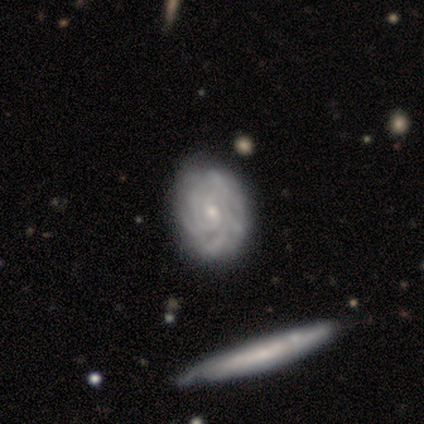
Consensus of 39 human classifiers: Q: Smooth or featured?
A: featured or disk (95%); runner-up: smooth (5%)
Q: Edge-on disk?
A: no (95%); runner-up: yes (5%)
Q: Bar?
A: no (66%); runner-up: weak (31%)
Q: Spiral arms?
A: yes (97%); runner-up: no (3%)
Q: Spiral winding?
A: tight (79%); runner-up: medium (18%)
Q: Spiral arm count?
A: 2 (38%); runner-up: can't tell (29%)
Q: Bulge size?
A: small (69%); runner-up: moderate (23%)
Q: Merging?
A: none (54%); runner-up: minor disturbance (10%)